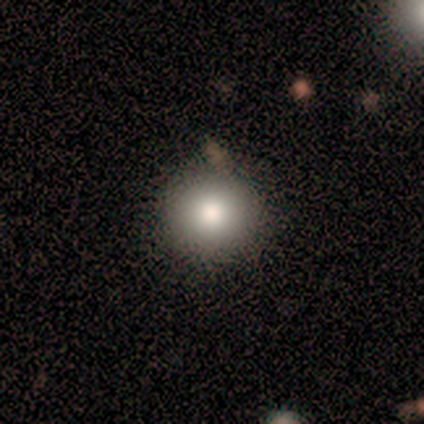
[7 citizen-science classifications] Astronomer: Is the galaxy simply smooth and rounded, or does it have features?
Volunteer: smooth — 57%.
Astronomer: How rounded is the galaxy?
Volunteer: round — 75%.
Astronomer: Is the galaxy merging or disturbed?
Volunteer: none — 100%.